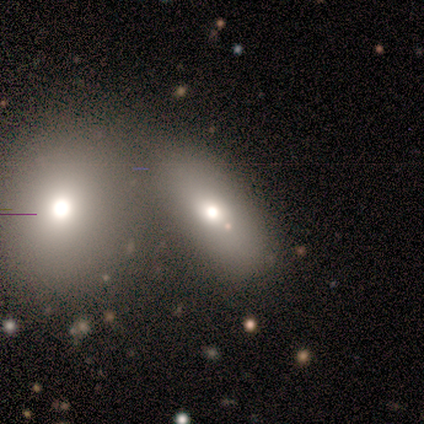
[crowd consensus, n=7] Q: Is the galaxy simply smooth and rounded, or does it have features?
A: smooth — 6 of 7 (86%).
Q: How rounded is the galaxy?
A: in between — 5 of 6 (83%).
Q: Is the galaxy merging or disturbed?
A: merger — 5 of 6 (83%).